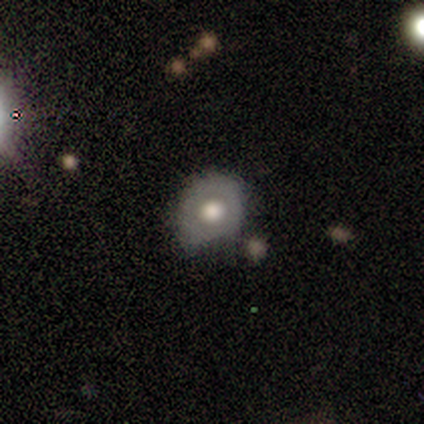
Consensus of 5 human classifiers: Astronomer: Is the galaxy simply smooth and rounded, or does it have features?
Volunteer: smooth — 60%.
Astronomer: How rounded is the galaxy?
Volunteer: round — 100%.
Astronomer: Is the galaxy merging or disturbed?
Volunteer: none — 75%.